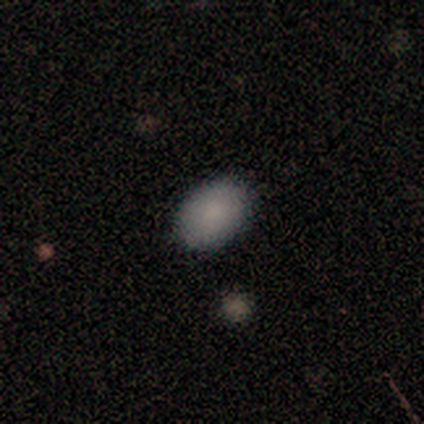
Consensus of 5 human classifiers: This is clearly a smooth galaxy (80%). How rounded: likely in between (75%). Merging: clearly none (80%).